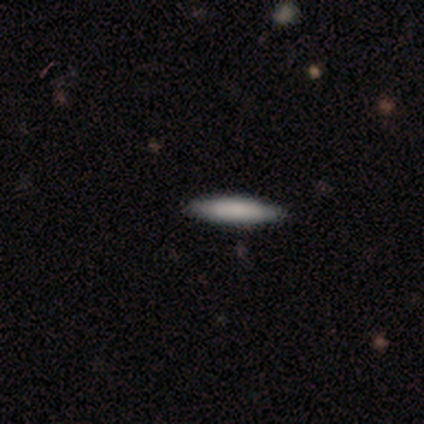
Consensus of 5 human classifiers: Smooth or featured? smooth (100%)
How rounded? cigar-shaped (100%)
Merging? none (100%)